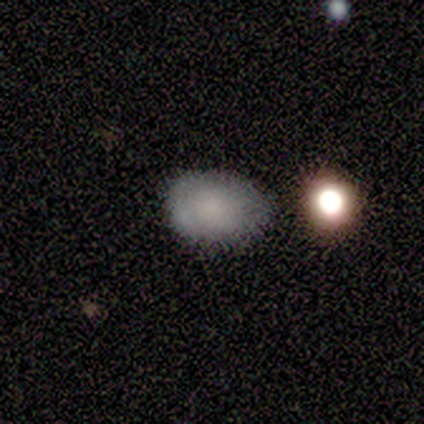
Smooth or featured: smooth — 75% (featured or disk — 25%)
How rounded: in between — 100%
Merging: none — 50% (tied with minor disturbance — 50%)